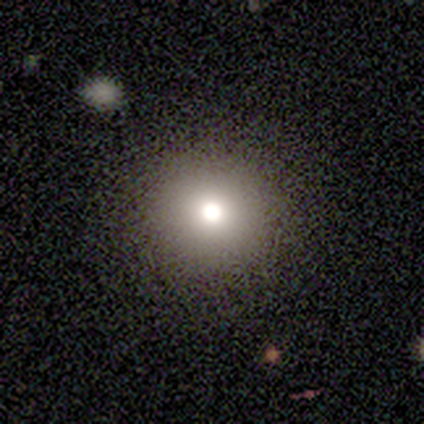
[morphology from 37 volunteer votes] Smooth or featured? smooth (65%)
How rounded? round (96%)
Merging? none (83%)